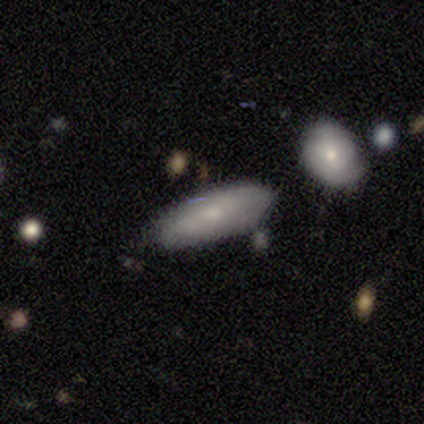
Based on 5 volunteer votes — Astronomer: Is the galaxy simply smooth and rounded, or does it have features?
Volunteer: smooth — 100%.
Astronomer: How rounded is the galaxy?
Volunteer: in between — 80%.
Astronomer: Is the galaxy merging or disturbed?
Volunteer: none — 80%.